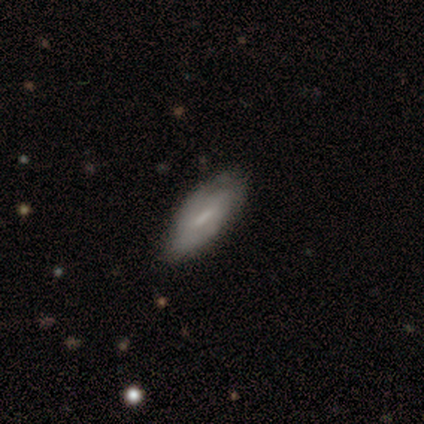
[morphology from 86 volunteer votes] A smooth galaxy with no disk features (62%) that is in between round and cigar-shaped (66%).

Vote fractions:
- Smooth or featured? smooth: 62% / featured or disk: 36% / star or artifact: 2%
- How rounded? in between: 66% / cigar-shaped: 32% / round: 2%
- Merging? none: 73% / minor disturbance: 25% / major disturbance: 2% / merger: 0%